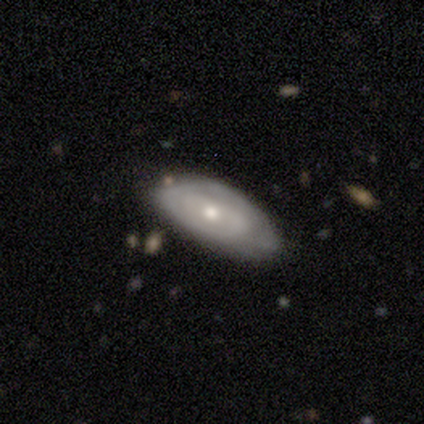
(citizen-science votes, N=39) Smooth or featured: featured or disk — 59% (smooth — 38%)
Edge-on disk: no — 91% (yes — 9%)
Bar: no — 57% (strong — 24%)
Spiral arms: yes — 67% (no — 33%)
Spiral winding: tight — 50% (medium — 43%)
Spiral arm count: can't tell — 36% (1 — 29%)
Bulge size: moderate — 48% (small — 43%)
Merging: none — 61% (minor disturbance — 29%)